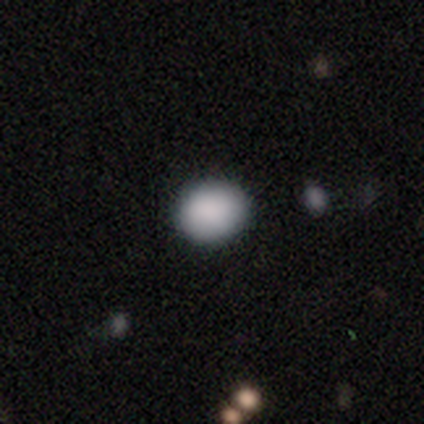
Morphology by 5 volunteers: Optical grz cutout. It shows a smooth galaxy with no disk features (100%) that is round (80%). Merging: none (80%).